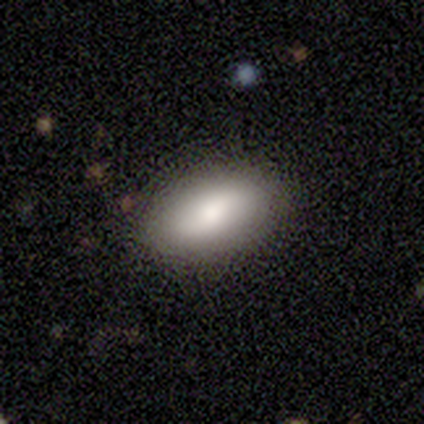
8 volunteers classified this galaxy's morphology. This is clearly a smooth galaxy (100%). How rounded: clearly in between (100%). Merging: likely none (75%).